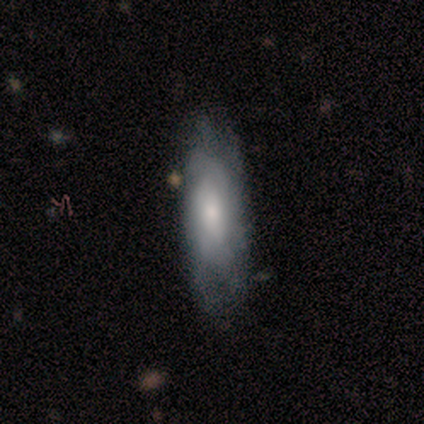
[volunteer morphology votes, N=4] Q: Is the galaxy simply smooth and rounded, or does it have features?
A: smooth — 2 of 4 (50%).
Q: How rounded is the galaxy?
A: cigar-shaped — 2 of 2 (100%).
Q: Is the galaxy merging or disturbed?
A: none — 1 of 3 (33%, tied with minor disturbance and major disturbance).